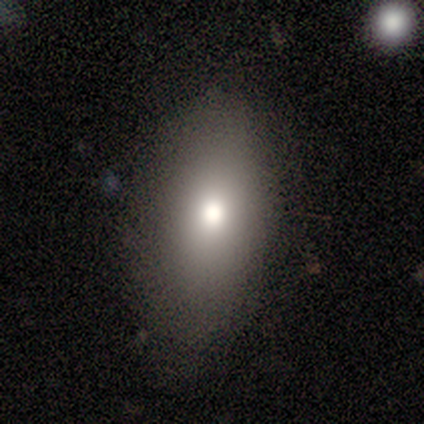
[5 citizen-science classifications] A smooth galaxy with no disk features (80%) that is in between round and cigar-shaped (100%). Merging: none (100%).